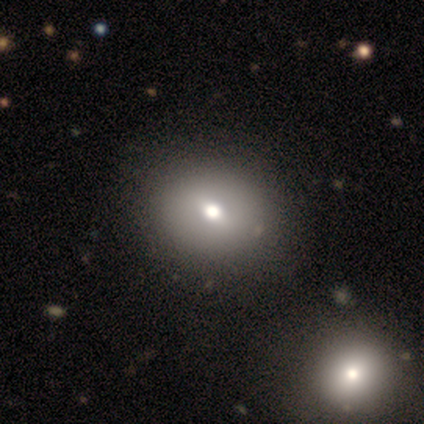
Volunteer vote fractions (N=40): Q: Smooth or featured?
A: smooth (70%); runner-up: featured or disk (22%)
Q: How rounded?
A: round (54%); runner-up: in between (46%)
Q: Merging?
A: none (57%); runner-up: merger (11%)